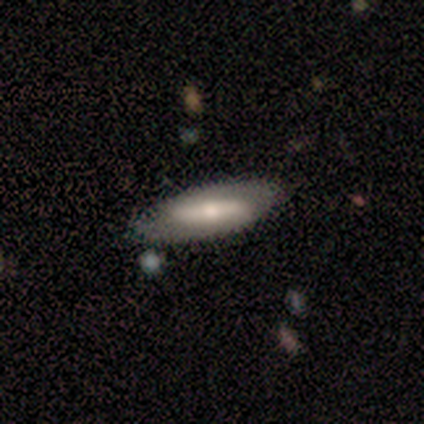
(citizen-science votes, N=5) A featured or disk galaxy (60%) with a strong bar (100%), no spiral arms (67%) and a moderate central bulge (67%). Merging: none (80%).